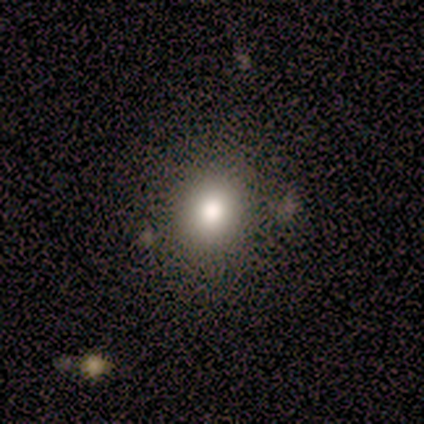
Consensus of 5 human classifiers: Overall: smooth (40%, tied with featured or disk). How rounded: round (100%). Merging: none (75%).